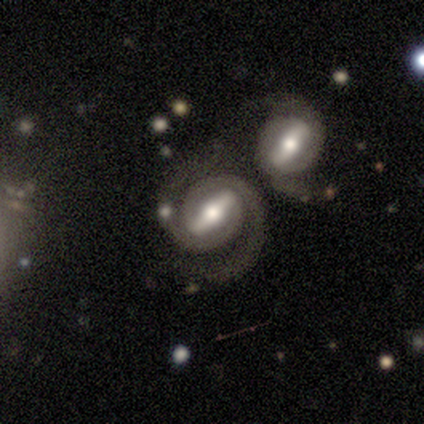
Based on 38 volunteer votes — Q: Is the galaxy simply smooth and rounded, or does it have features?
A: featured or disk — 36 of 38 (95%).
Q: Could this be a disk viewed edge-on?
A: no — 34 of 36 (94%).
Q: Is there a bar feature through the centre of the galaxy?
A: strong — 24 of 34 (71%).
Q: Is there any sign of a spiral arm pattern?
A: yes — 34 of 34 (100%).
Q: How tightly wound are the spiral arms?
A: tight — 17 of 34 (50%).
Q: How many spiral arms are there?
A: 2 — 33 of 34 (97%).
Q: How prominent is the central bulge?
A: moderate — 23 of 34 (68%).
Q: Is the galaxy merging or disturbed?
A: merger — 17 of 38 (45%).